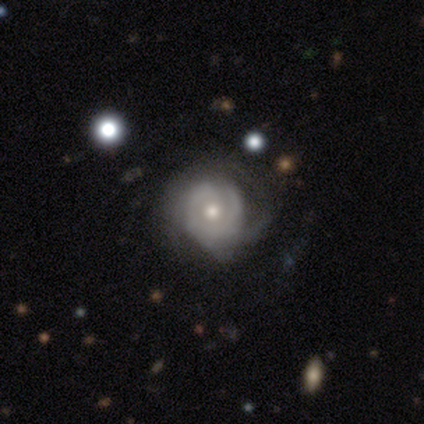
A featured or disk galaxy (98%) with no bar (81%), tight (59%) spiral arms (86%) and a moderate central bulge (68%).

Vote fractions:
- Smooth or featured? featured or disk: 98% / smooth: 2% / star or artifact: 0%
- Edge-on disk? no: 95% / yes: 5%
- Bar? no: 81% / weak: 14% / strong: 5%
- Spiral arms? yes: 86% / no: 14%
- Spiral winding? tight: 59% / medium: 34% / loose: 6%
- Spiral arm count? can't tell: 69% / 3: 16% / 2: 6% / more than 4: 6% / 1: 3% / 4: 0%
- Bulge size? moderate: 68% / small: 27% / large: 5% / dominant: 0% / none: 0%
- Merging? none: 40% / minor disturbance: 22% / major disturbance: 8% / merger: 2%